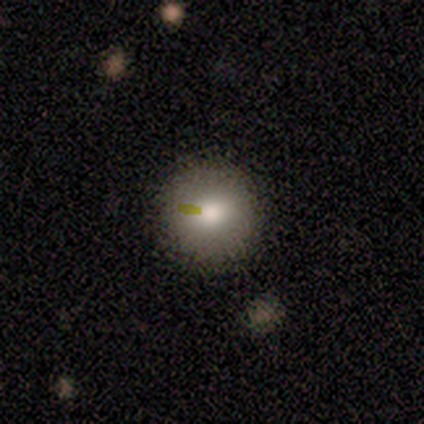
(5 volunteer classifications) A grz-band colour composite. It shows a smooth galaxy with no disk features (60%) that is round (100%). Merging: none (75%).